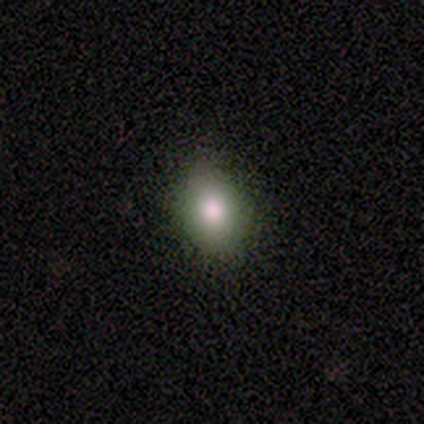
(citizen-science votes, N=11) Morphology: type=smooth (73%); roundness=in between (100%); merging=none (88%).